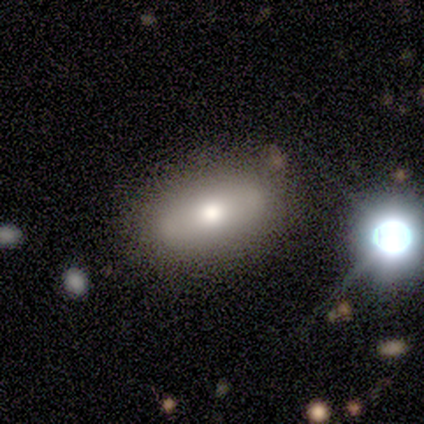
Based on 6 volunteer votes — This appears to be a star or artifact, not a galaxy (50%).